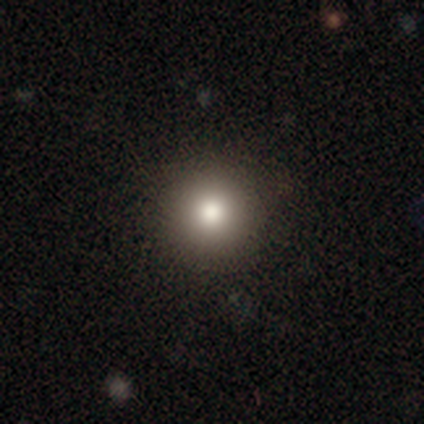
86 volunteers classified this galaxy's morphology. type=smooth (74%); roundness=round (100%); merging=none (97%).